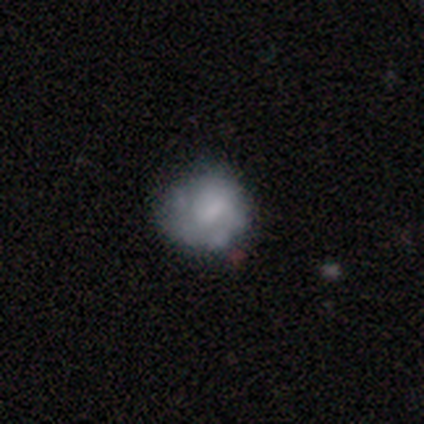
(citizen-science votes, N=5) Q: Smooth or featured?
A: featured or disk (60%); runner-up: smooth (40%)
Q: Edge-on disk?
A: no (100%)
Q: Bar?
A: no (67%); runner-up: strong (33%)
Q: Spiral arms?
A: no (100%)
Q: Bulge size?
A: none (67%); runner-up: moderate (33%)
Q: Merging?
A: none (60%); runner-up: minor disturbance (20%)